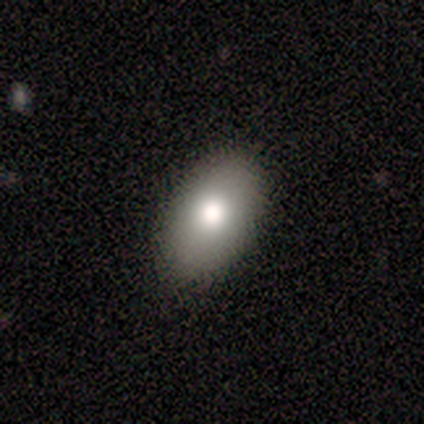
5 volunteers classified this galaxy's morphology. This appears to be a smooth galaxy with no disk features (80%) that is in between round and cigar-shaped (100%). Merging: none (80%).